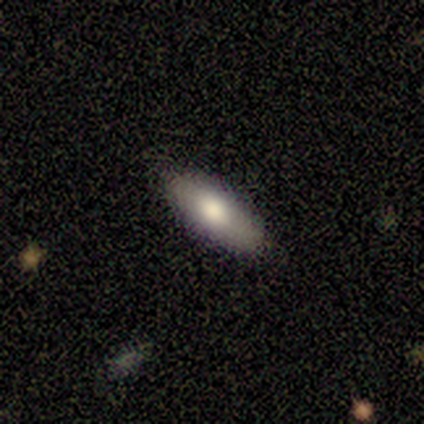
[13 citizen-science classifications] smooth-or-featured: smooth: 85% | featured or disk: 15% | star or artifact: 0%
  how-rounded: in between: 91% | cigar-shaped: 9% | round: 0%
  merging: none: 92% | minor disturbance: 8% | major disturbance: 0% | merger: 0%